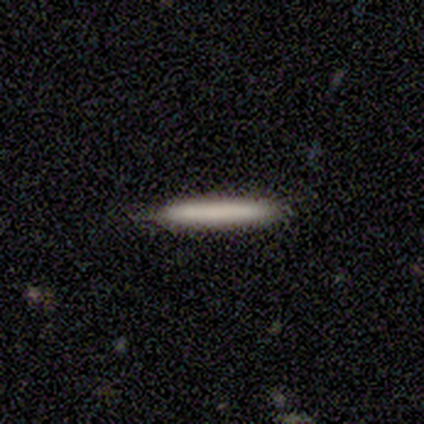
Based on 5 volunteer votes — Q: Smooth or featured?
A: smooth (80%); runner-up: featured or disk (20%)
Q: How rounded?
A: cigar-shaped (100%)
Q: Merging?
A: none (100%)